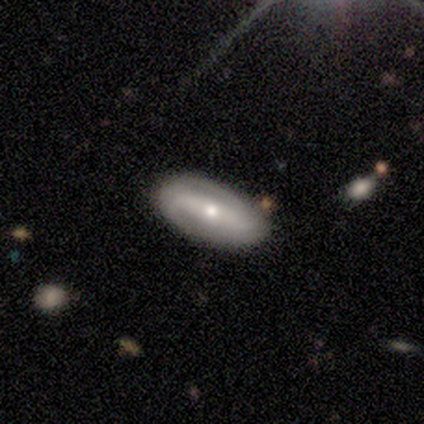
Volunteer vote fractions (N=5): smooth-or-featured: featured or disk: 60% | smooth: 40% | star or artifact: 0%
  disk-edge-on: no: 67% | yes: 33%
    bar: weak: 50% (tied) | no: 50% (tied) | strong: 0%
    has-spiral-arms: yes: 50% (tied) | no: 50% (tied)
      spiral-winding: medium: 100% | tight: 0% | loose: 0%
      spiral-arm-count: 2: 100% | 1: 0% | 3: 0% | 4: 0% | more than 4: 0% | can't tell: 0%
    bulge-size: small: 100% | dominant: 0% | large: 0% | moderate: 0% | none: 0%
  merging: none: 100% | minor disturbance: 0% | major disturbance: 0% | merger: 0%